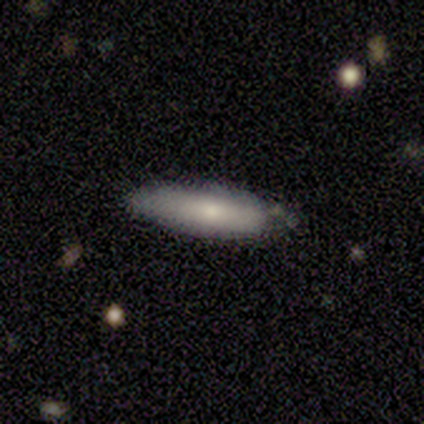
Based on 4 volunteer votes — smooth-or-featured: smooth: 75% | featured or disk: 25% | star or artifact: 0%
  how-rounded: cigar-shaped: 67% | in between: 33% | round: 0%
  merging: none: 75% | minor disturbance: 25% | major disturbance: 0% | merger: 0%